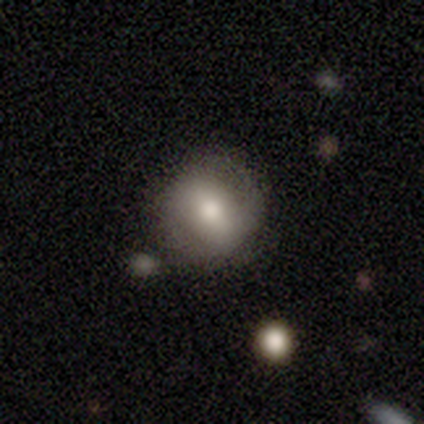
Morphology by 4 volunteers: This appears to be a featured or disk galaxy (75%) with a strong bar (33%, tied with weak and no), 2 (50%, tied with can't tell) medium (50%, tied with loose) spiral arms (67%) and a large central bulge (33%, tied with moderate and small). Merging: minor disturbance (50%).